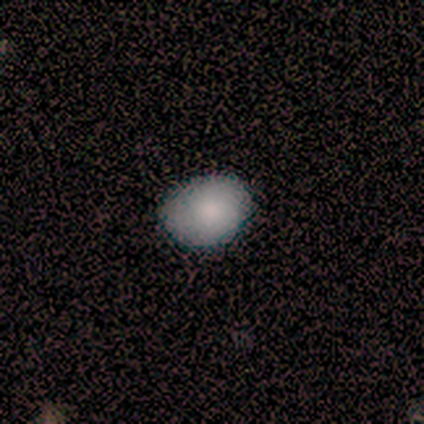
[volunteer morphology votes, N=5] type=smooth (100%); roundness=in between (80%); merging=none (60%).